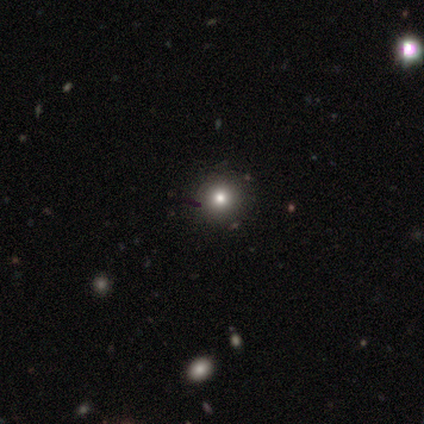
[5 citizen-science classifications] Smooth or featured: smooth — 80% (star or artifact — 20%)
How rounded: round — 100%
Merging: none — 100%